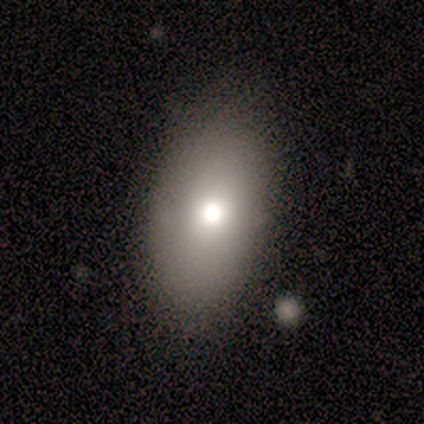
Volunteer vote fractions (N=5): This appears to be a smooth galaxy with no disk features (80%) that is in between round and cigar-shaped (100%). Merging: none (100%).